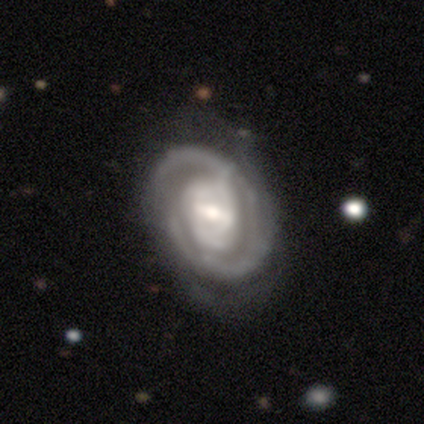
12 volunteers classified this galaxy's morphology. A featured or disk galaxy (83%) with a strong bar (50%), tight (60%) spiral arms (100%) and a moderate central bulge (60%).

Vote fractions:
- Smooth or featured? featured or disk: 83% / smooth: 8% / star or artifact: 8%
- Edge-on disk? no: 100% / yes: 0%
- Bar? strong: 50% / weak: 30% / no: 20%
- Spiral arms? yes: 100% / no: 0%
- Spiral winding? tight: 60% / medium: 30% / loose: 10%
- Spiral arm count? can't tell: 60% / 2: 40% / 1: 0% / 3: 0% / 4: 0% / more than 4: 0%
- Bulge size? moderate: 60% / small: 20% / large: 10% / none: 10% / dominant: 0%
- Merging? none: 45% / minor disturbance: 36% / major disturbance: 18% / merger: 0%